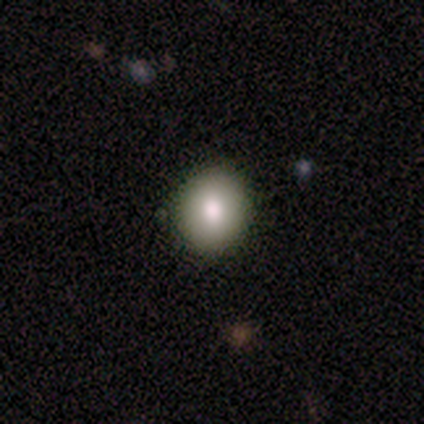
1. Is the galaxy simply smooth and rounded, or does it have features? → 79% smooth, 18% featured or disk, 3% star or artifact.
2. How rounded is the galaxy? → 74% round, 26% in between, 0% cigar-shaped.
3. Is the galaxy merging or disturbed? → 95% none, 5% minor disturbance, 0% major disturbance, 0% merger.